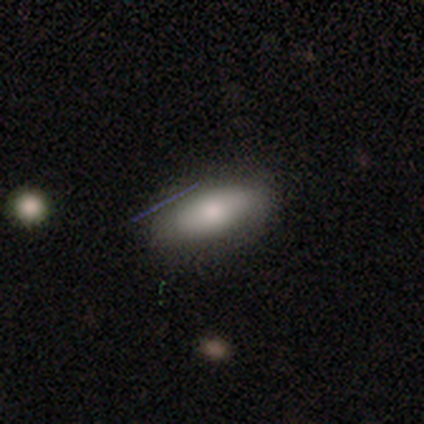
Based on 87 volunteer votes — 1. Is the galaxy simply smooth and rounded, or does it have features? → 75% smooth, 17% featured or disk, 8% star or artifact.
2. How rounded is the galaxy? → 77% in between, 17% cigar-shaped, 6% round.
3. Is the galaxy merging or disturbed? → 80% none, 14% minor disturbance, 5% merger, 1% major disturbance.